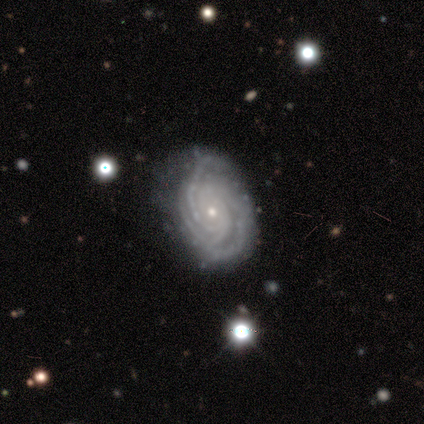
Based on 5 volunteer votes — A featured or disk galaxy (100%) with no bar (80%), 3 (60%) tight (100%) spiral arms (100%) and a small central bulge (80%).

Vote fractions:
- Smooth or featured? featured or disk: 100% / smooth: 0% / star or artifact: 0%
- Edge-on disk? no: 100% / yes: 0%
- Bar? no: 80% / weak: 20% / strong: 0%
- Spiral arms? yes: 100% / no: 0%
- Spiral winding? tight: 100% / medium: 0% / loose: 0%
- Spiral arm count? 3: 60% / 1: 20% / 4: 20% / 2: 0% / more than 4: 0% / can't tell: 0%
- Bulge size? small: 80% / moderate: 20% / dominant: 0% / large: 0% / none: 0%
- Merging? none: 60% / minor disturbance: 20% / major disturbance: 20% / merger: 0%